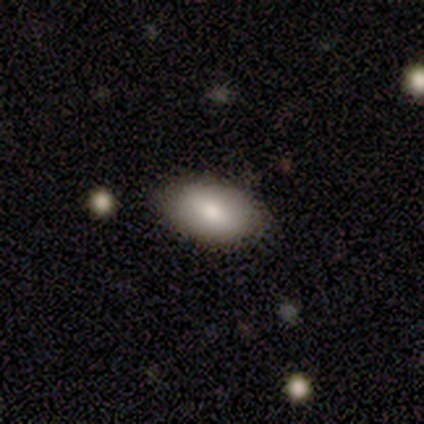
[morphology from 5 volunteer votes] Volunteers were most divided on "merging": none: 80%, minor disturbance: 20%, major disturbance: 0%, merger: 0%. More confident: smooth or featured — smooth (100%); how rounded — in between (100%).